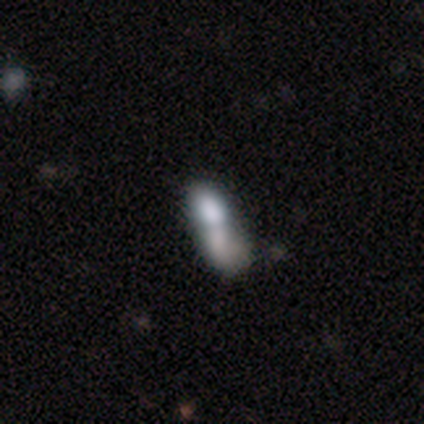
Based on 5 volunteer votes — A smooth galaxy with no disk features (60%) that is cigar-shaped (67%).

Vote fractions:
- Smooth or featured? smooth: 60% / featured or disk: 20% / star or artifact: 20%
- How rounded? cigar-shaped: 67% / in between: 33% / round: 0%
- Merging? minor disturbance: 50% (tied) / merger: 50% (tied) / none: 0% / major disturbance: 0%